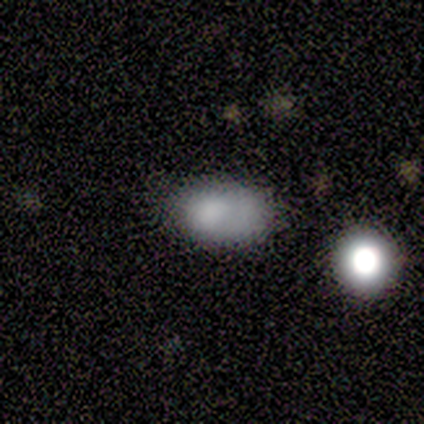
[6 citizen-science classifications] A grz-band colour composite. It shows a smooth galaxy with no disk features (100%) that is in between round and cigar-shaped (83%). Merging: none (83%).